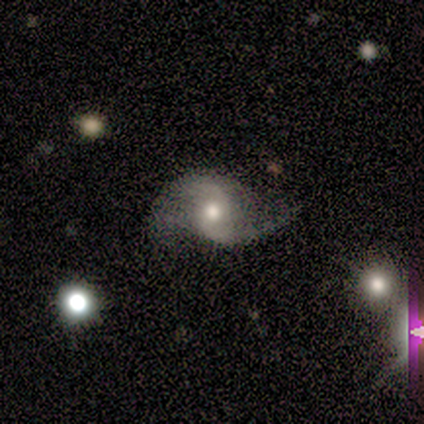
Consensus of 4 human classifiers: Smooth or featured? 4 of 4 (100%) said featured or disk. Edge-on disk? 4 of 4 (100%) said no. Bar? 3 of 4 (75%) said no. Spiral arms? 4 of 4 (100%) said yes. Spiral winding? 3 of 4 (75%) said loose. Spiral arm count? 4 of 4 (100%) said 2. Bulge size? 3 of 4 (75%) said moderate. Merging? 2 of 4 (50%) said minor disturbance.